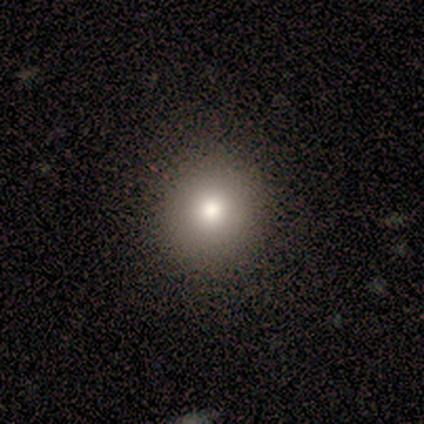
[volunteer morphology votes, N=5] Smooth or featured? smooth (80%)
How rounded? round (50%, tied with in between)
Merging? none (75%)